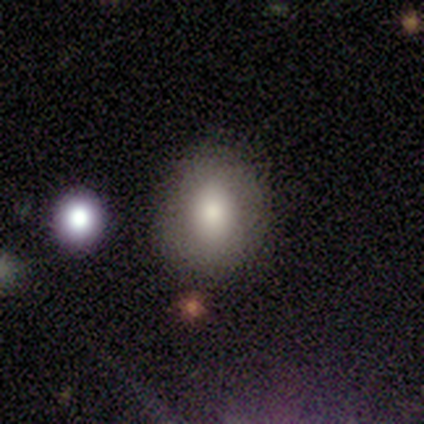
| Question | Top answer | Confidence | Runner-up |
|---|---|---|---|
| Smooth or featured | smooth | 80% | featured or disk (20%) |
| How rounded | in between | 75% | round (25%) |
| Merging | none | 80% | minor disturbance (20%) |